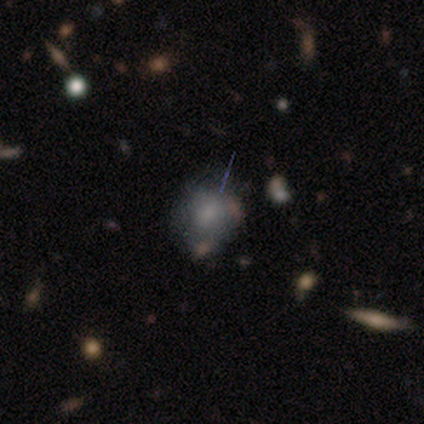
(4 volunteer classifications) A smooth galaxy with no disk features (75%) that is round (67%).

Vote fractions:
- Smooth or featured? smooth: 75% / featured or disk: 25% / star or artifact: 0%
- How rounded? round: 67% / in between: 33% / cigar-shaped: 0%
- Merging? none: 75% / minor disturbance: 25% / major disturbance: 0% / merger: 0%